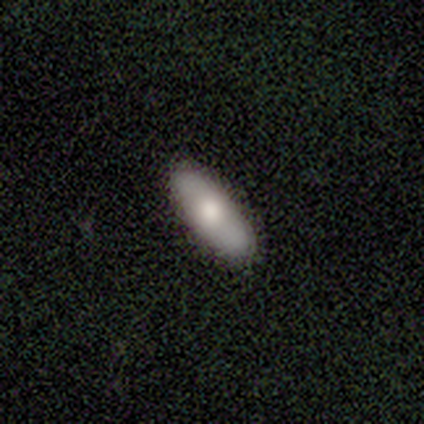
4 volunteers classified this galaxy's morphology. smooth-or-featured: smooth: 50% (tied) | featured or disk: 50% (tied) | star or artifact: 0%
  how-rounded: in between: 50% (tied) | cigar-shaped: 50% (tied) | round: 0%
  merging: none: 75% | major disturbance: 25% | minor disturbance: 0% | merger: 0%